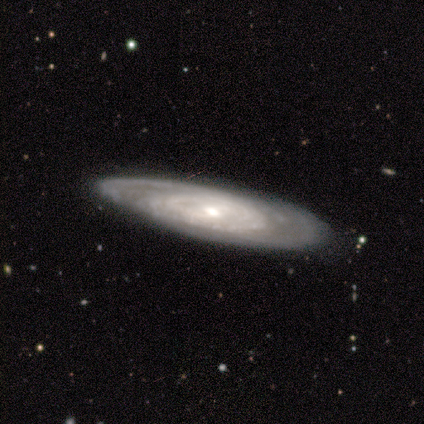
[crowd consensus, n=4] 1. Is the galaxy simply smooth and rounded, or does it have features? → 100% featured or disk, 0% smooth, 0% star or artifact.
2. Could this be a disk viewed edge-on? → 75% no, 25% yes.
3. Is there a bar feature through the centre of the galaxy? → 67% weak, 33% no, 0% strong.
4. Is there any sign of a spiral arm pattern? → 100% yes, 0% no.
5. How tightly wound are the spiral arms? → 67% tight, 33% loose, 0% medium.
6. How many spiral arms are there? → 33% 2 (tied), 33% more than 4 (tied), 33% can't tell (tied), 0% 1, 0% 3, 0% 4.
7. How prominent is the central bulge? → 67% moderate, 33% small, 0% dominant, 0% large, 0% none.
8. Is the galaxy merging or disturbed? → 75% none, 25% minor disturbance, 0% major disturbance, 0% merger.